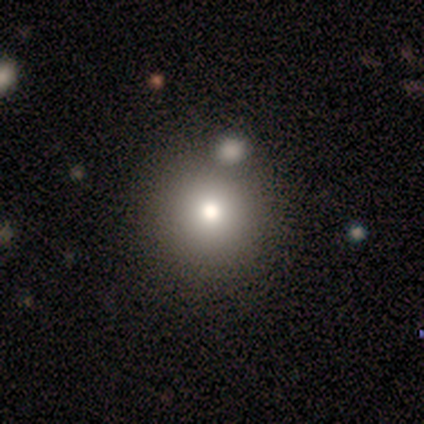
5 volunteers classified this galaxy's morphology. A featured or disk galaxy (60%) with no bar (100%), no spiral arms (100%) and a large central bulge (67%). Merging: none (75%).